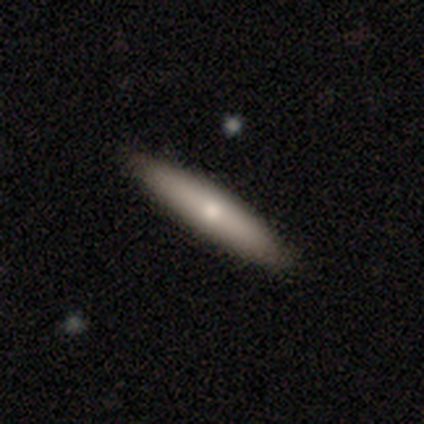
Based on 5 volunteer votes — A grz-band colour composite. It shows a featured or disk galaxy (80%) viewed edge-on (100%) with no central bulge (50%, tied with rounded). Merging: none (100%).